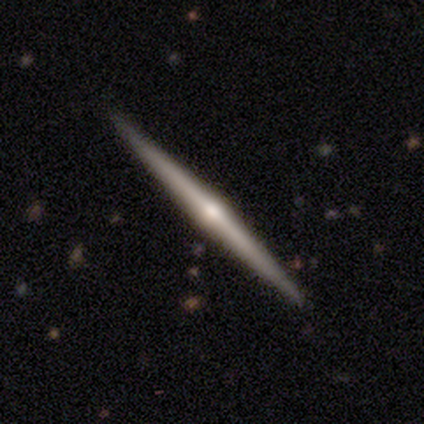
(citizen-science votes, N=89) Q: Smooth or featured?
A: featured or disk (80%); runner-up: smooth (12%)
Q: Edge-on disk?
A: yes (100%)
Q: Edge-on bulge?
A: rounded (93%); runner-up: none (7%)
Q: Merging?
A: none (95%); runner-up: merger (2%)